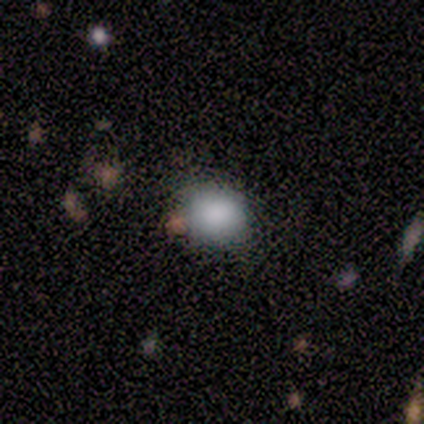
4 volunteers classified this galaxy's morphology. smooth_or_featured: smooth (p=0.75) [alt: star or artifact p=0.25]
how_rounded: round (p=0.67) [alt: in between p=0.33]
merging: none (p=1.00)